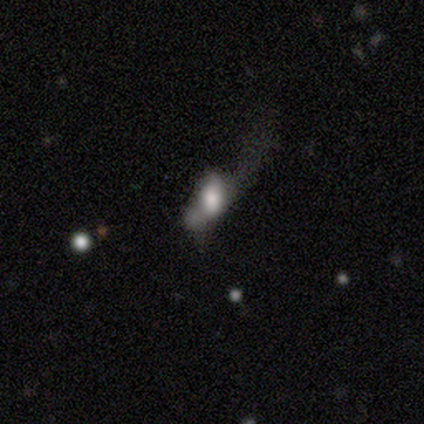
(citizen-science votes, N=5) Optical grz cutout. It shows a smooth galaxy with no disk features (40%, tied with featured or disk) that is round (50%, tied with in between). Merging: minor disturbance (50%).